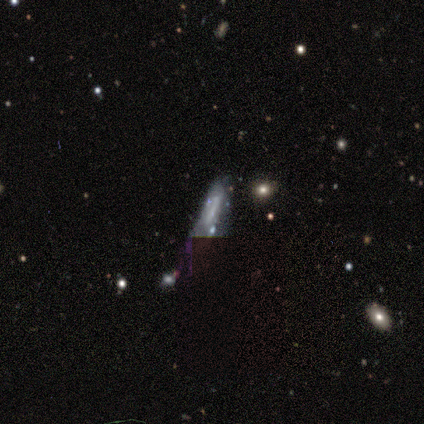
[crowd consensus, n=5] smooth_or_featured: featured or disk (p=0.80) [alt: star or artifact p=0.20]
disk_edge_on: yes (p=0.50) [tied with: no p=0.50]
edge_on_bulge: none (p=0.50) [tied with: rounded p=0.50]
merging: minor disturbance (p=0.50) [alt: none p=0.25]